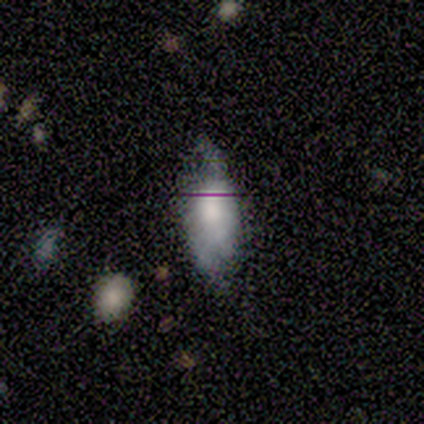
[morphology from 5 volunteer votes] Smooth or featured? smooth (60%)
How rounded? in between (100%)
Merging? minor disturbance (60%)